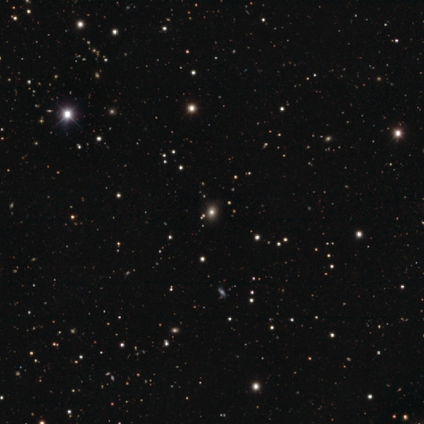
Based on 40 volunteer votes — This appears to be a star or artifact, not a galaxy (68%).